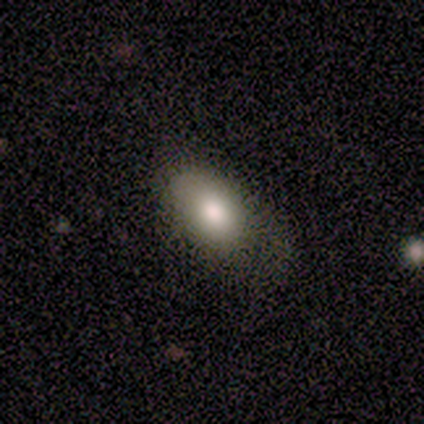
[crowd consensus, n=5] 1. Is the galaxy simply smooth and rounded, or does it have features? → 80% smooth, 20% featured or disk, 0% star or artifact.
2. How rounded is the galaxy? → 75% in between, 25% cigar-shaped, 0% round.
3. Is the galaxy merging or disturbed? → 40% none (tied), 40% minor disturbance (tied), 20% major disturbance, 0% merger.